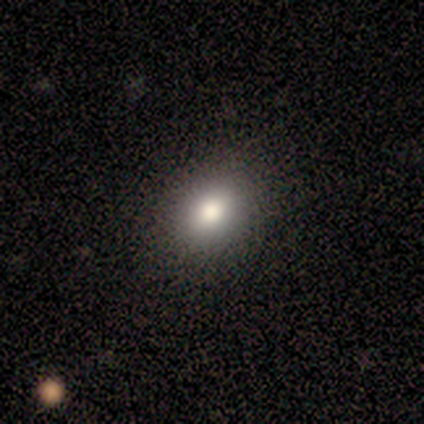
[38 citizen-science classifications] Overall: smooth (82%). How rounded: in between (68%; round 32%). Merging: none (76%).